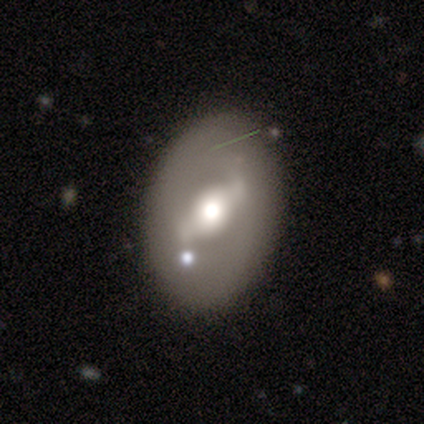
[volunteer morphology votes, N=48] smooth-or-featured: featured or disk: 58% | smooth: 40% | star or artifact: 2%
  disk-edge-on: no: 93% | yes: 7%
    bar: weak: 50% | strong: 38% | no: 12%
    has-spiral-arms: no: 88% | yes: 12%
    bulge-size: large: 50% (tied) | moderate: 50% (tied) | dominant: 0% | small: 0% | none: 0%
  merging: none: 77% | minor disturbance: 19% | major disturbance: 4% | merger: 0%